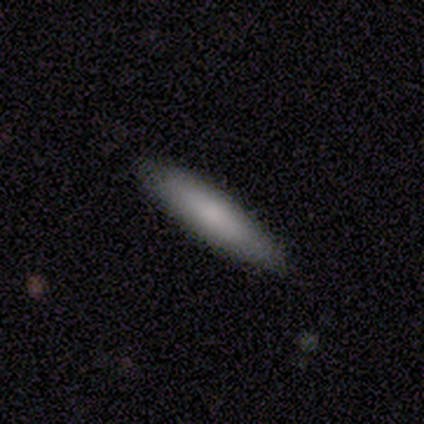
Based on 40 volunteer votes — This appears to be a smooth galaxy with no disk features (75%) that is cigar-shaped (80%). Merging: none (97%).